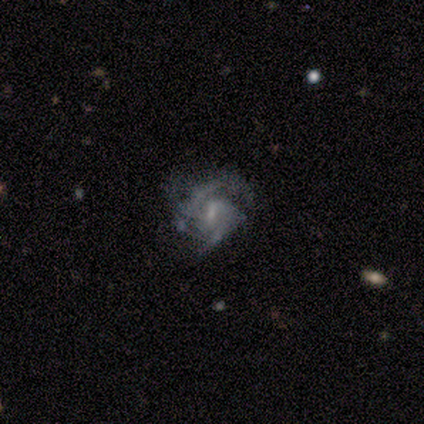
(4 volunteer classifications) A featured or disk galaxy (75%) with a weak bar (67%), 2 (100%) tight (100%) spiral arms (100%) and a moderate central bulge (33%, tied with small and none).

Vote fractions:
- Smooth or featured? featured or disk: 75% / smooth: 25% / star or artifact: 0%
- Edge-on disk? no: 100% / yes: 0%
- Bar? weak: 67% / no: 33% / strong: 0%
- Spiral arms? yes: 100% / no: 0%
- Spiral winding? tight: 100% / medium: 0% / loose: 0%
- Spiral arm count? 2: 100% / 1: 0% / 3: 0% / 4: 0% / more than 4: 0% / can't tell: 0%
- Bulge size? moderate: 33% (tied) / small: 33% (tied) / none: 33% (tied) / dominant: 0% / large: 0%
- Merging? none: 50% / minor disturbance: 25% / major disturbance: 25% / merger: 0%